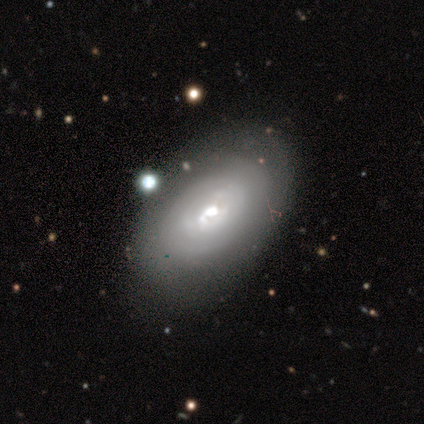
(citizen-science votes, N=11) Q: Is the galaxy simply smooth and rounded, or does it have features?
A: featured or disk — 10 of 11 (91%).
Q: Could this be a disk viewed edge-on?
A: no — 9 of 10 (90%).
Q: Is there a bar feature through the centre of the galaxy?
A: no — 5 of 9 (56%).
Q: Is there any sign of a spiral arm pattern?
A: no — 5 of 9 (56%).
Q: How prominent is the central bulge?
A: moderate — 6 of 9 (67%).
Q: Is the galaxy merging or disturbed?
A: none — 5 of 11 (45%).